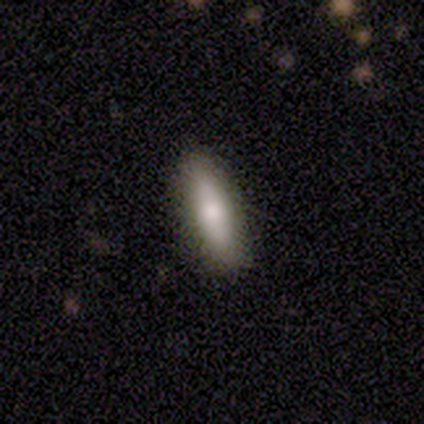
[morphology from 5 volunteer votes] This appears to be a smooth galaxy with no disk features (80%) that is cigar-shaped (75%). Merging: none (100%).